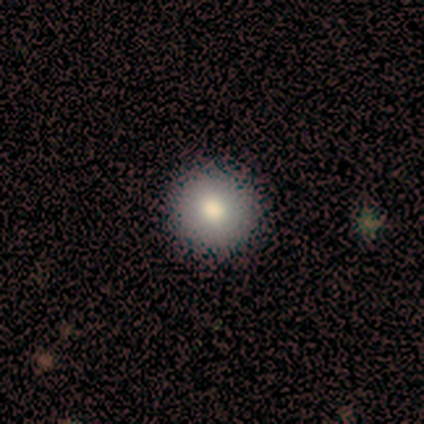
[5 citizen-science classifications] Overall: smooth (100%). How rounded: round (100%). Merging: none (100%).